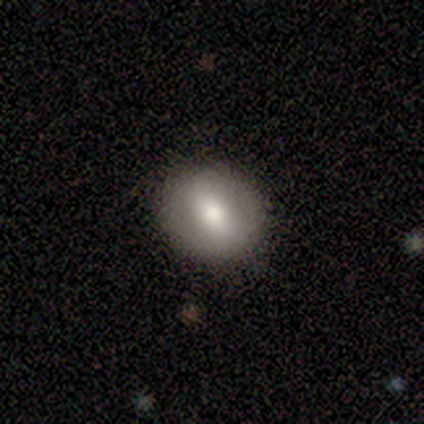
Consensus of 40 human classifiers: This is likely a smooth galaxy (65%). How rounded: possibly round (54%). Merging: clearly none (92%).